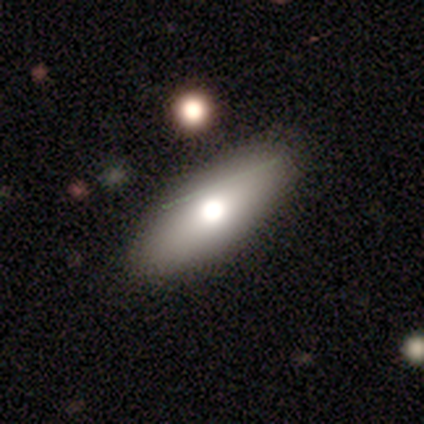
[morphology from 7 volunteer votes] smooth_or_featured: smooth (p=0.57) [alt: featured or disk p=0.29]
how_rounded: in between (p=0.75) [alt: cigar-shaped p=0.25]
merging: none (p=0.83) [alt: merger p=0.17]